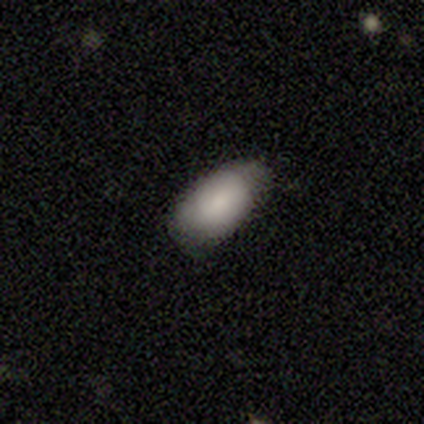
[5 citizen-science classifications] Smooth or featured? 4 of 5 (80%) said smooth. How rounded? 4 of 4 (100%) said in between. Merging? 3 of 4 (75%) said none.